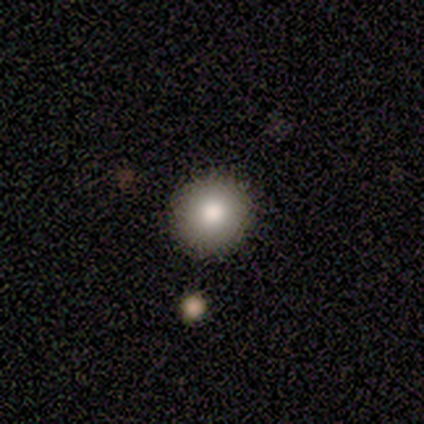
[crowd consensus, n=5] Smooth or featured? smooth (100%)
How rounded? round (100%)
Merging? none (80%)